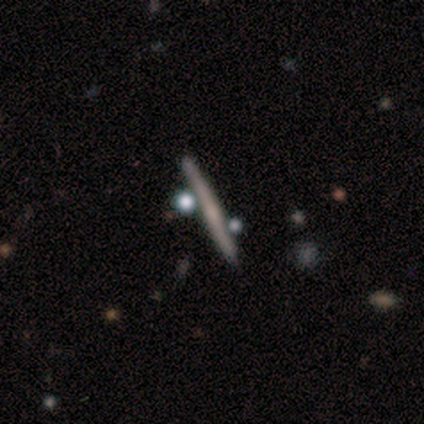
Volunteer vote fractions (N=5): Volunteers were most divided on "smooth or featured": featured or disk: 60%, smooth: 40%, star or artifact: 0%. More confident: edge-on disk — yes (100%); merging — none (80%); edge-on bulge — none (67%).